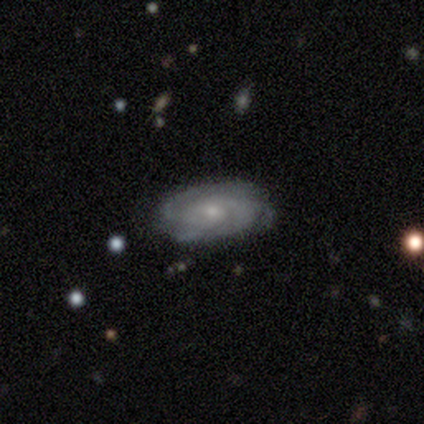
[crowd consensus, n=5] Volunteers were most divided on "bar": weak: 60%, no: 40%, strong: 0%. More confident: smooth or featured — featured or disk (100%); edge-on disk — no (100%); spiral arms — yes (100%); bulge size — small (100%); merging — none (100%); spiral winding — medium (60%); spiral arm count — 2 (60%).